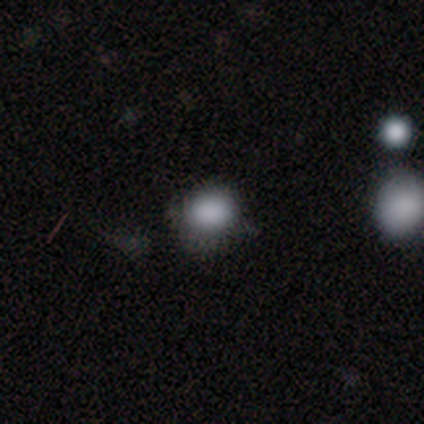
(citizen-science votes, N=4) smooth-or-featured: smooth: 100% | featured or disk: 0% | star or artifact: 0%
  how-rounded: round: 100% | in between: 0% | cigar-shaped: 0%
  merging: none: 75% | minor disturbance: 25% | major disturbance: 0% | merger: 0%